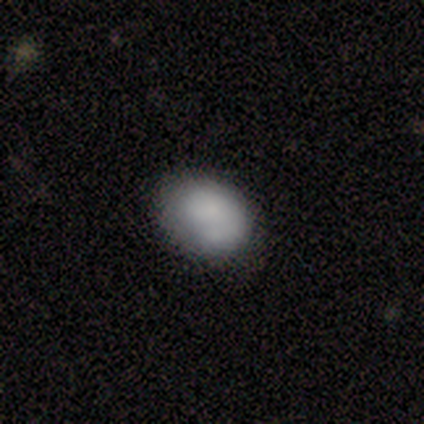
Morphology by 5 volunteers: Smooth or featured? smooth (100%)
How rounded? in between (60%)
Merging? none (40%, tied with minor disturbance)